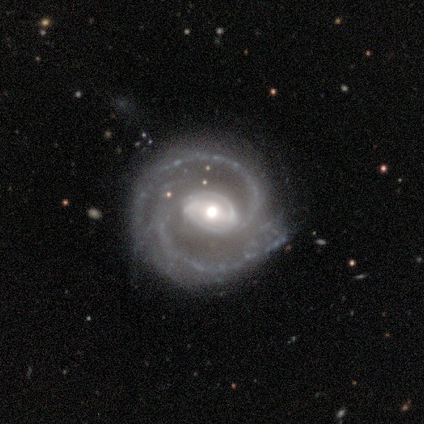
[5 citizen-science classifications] A featured or disk galaxy (80%) with a strong bar (75%), 2 (100%) medium (50%) spiral arms (100%) and a moderate central bulge (50%). Merging: none (60%).